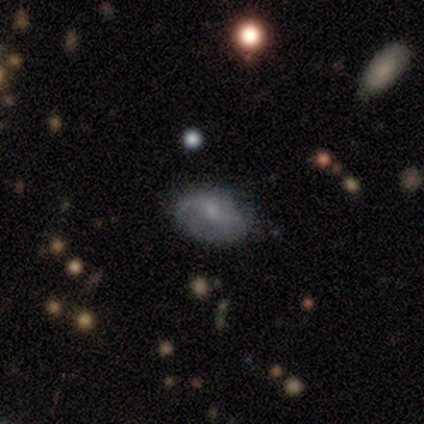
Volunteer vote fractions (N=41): This appears to be a featured or disk galaxy (54%) with a weak bar (48%, tied with no), 2 (80%) loose (60%) spiral arms (95%) and a small central bulge (38%). Merging: none (49%).